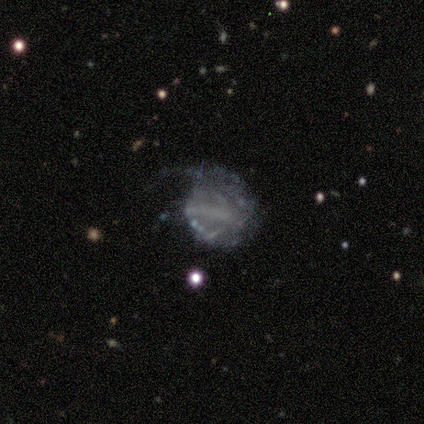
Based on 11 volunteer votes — Volunteers were most divided on "spiral winding" (2-way tie): tight: 40%, loose: 40%, medium: 20%. Remaining: edge-on disk — no (100%); bulge size — none (75%); smooth or featured — featured or disk (73%); spiral arms — yes (62%); bar — no (62%); spiral arm count — can't tell (60%); merging — none (40%).